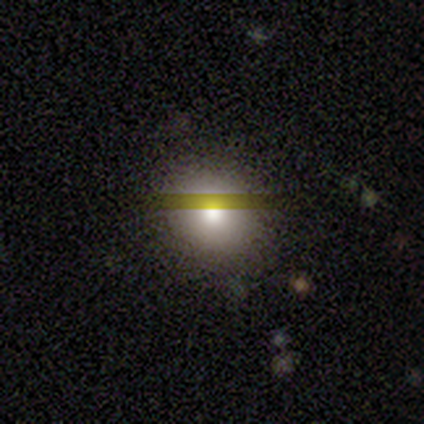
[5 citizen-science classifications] Smooth or featured? smooth (80%)
How rounded? round (50%, tied with in between)
Merging? none (75%)